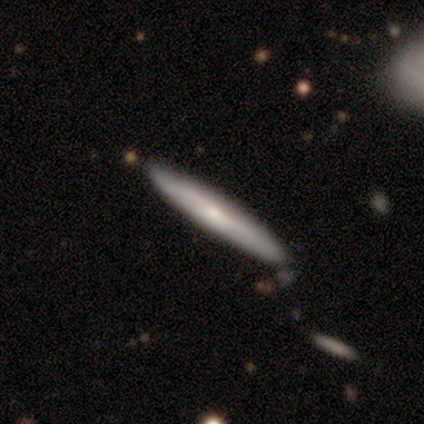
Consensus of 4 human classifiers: smooth-or-featured: smooth: 75% | featured or disk: 25% | star or artifact: 0%
  how-rounded: cigar-shaped: 100% | round: 0% | in between: 0%
  merging: none: 100% | minor disturbance: 0% | major disturbance: 0% | merger: 0%